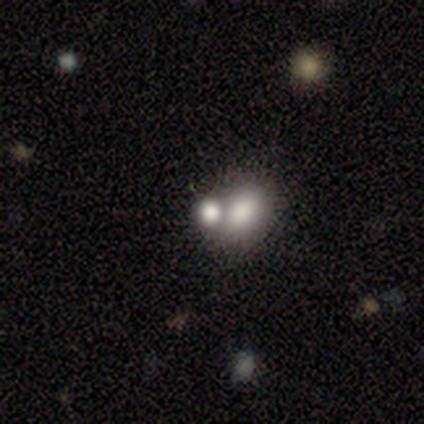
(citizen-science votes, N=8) Smooth or featured?
  - smooth: 100% *
  - featured or disk: 0%
  - star or artifact: 0%
How rounded?
  - round: 50% * (tied)
  - in between: 50% * (tied)
  - cigar-shaped: 0%
Merging?
  - merger: 75% *
  - none: 12%
  - minor disturbance: 12%
  - major disturbance: 0%